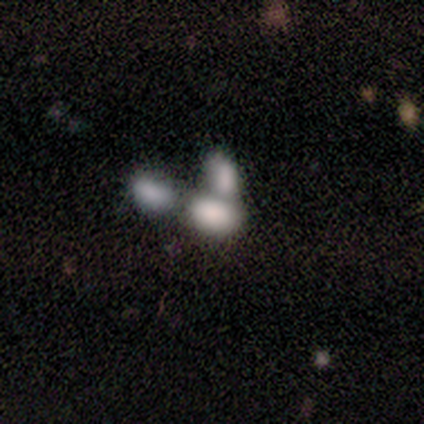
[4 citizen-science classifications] smooth-or-featured: smooth: 50% (tied) | featured or disk: 50% (tied) | star or artifact: 0%
  how-rounded: in between: 100% | round: 0% | cigar-shaped: 0%
  merging: merger: 100% | none: 0% | minor disturbance: 0% | major disturbance: 0%